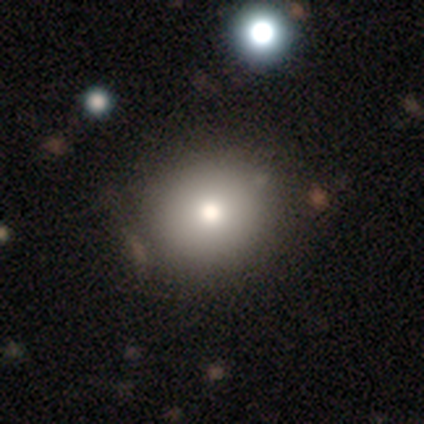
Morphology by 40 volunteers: Smooth or featured?
  - smooth: 92% *
  - featured or disk: 5%
  - star or artifact: 2%
How rounded?
  - round: 86% *
  - in between: 14%
  - cigar-shaped: 0%
Merging?
  - none: 69% *
  - minor disturbance: 8%
  - major disturbance: 3%
  - merger: 0%